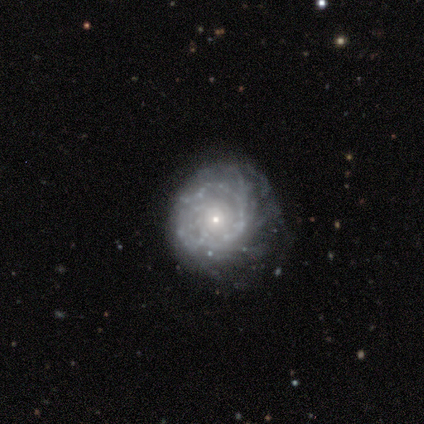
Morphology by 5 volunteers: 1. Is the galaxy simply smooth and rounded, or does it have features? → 80% featured or disk, 20% smooth, 0% star or artifact.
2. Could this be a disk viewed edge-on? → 100% no, 0% yes.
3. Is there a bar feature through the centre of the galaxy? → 75% no, 25% weak, 0% strong.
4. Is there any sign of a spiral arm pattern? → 75% yes, 25% no.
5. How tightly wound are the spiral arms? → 33% tight (tied), 33% medium (tied), 33% loose (tied).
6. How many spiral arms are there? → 33% 1 (tied), 33% 3 (tied), 33% can't tell (tied), 0% 2, 0% 4, 0% more than 4.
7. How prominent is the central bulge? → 50% small, 25% moderate, 25% none, 0% dominant, 0% large.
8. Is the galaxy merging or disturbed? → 100% none, 0% minor disturbance, 0% major disturbance, 0% merger.